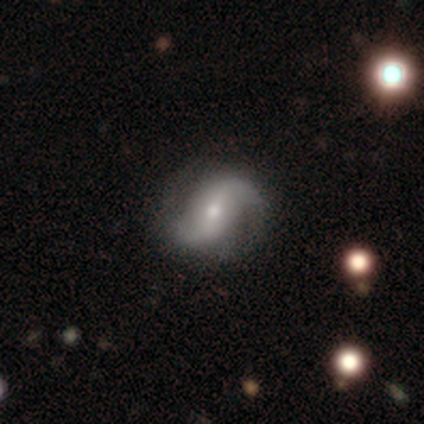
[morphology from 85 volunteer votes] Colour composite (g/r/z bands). It shows a featured or disk galaxy (91%) with a weak bar (39%), 2 (96%) loose (71%) spiral arms (97%) and a small central bulge (61%). Merging: none (87%).